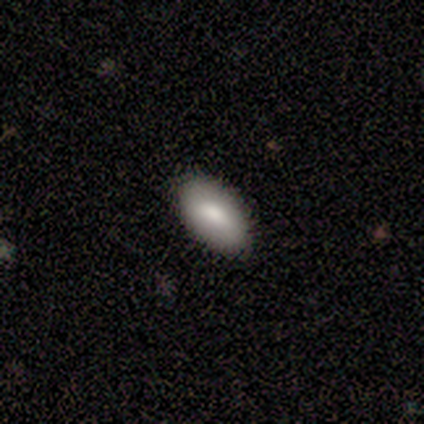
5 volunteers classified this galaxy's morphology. Smooth or featured?
  - smooth: 80% *
  - featured or disk: 20%
  - star or artifact: 0%
How rounded?
  - in between: 100% *
  - round: 0%
  - cigar-shaped: 0%
Merging?
  - none: 100% *
  - minor disturbance: 0%
  - major disturbance: 0%
  - merger: 0%